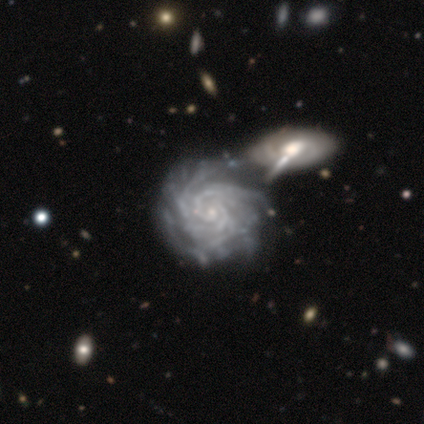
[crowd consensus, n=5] Morphology: type=featured or disk (100%); edge-on=no (100%); bar=no (60%); spiral arms=yes (100%); winding=tight (80%); arm count=3 (60%); bulge=small (100%); merging=merger (60%).